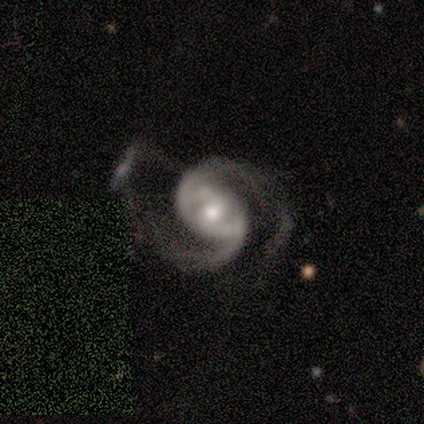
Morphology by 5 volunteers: This is clearly a featured or disk galaxy (100%). It is clearly not viewed edge-on (100%). Bar: likely no (60%). Spiral arm pattern: clearly yes (100%). Spiral arm count: clearly 2 (100%). Spiral winding: clearly medium (80%). Central bulge: likely moderate (60%). Merging: clearly none (80%).